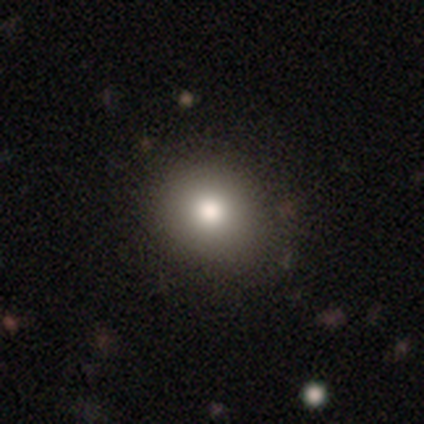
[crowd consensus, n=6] Smooth or featured: smooth — 83% (star or artifact — 17%)
How rounded: round — 80% (in between — 20%)
Merging: none — 60% (minor disturbance — 20%)